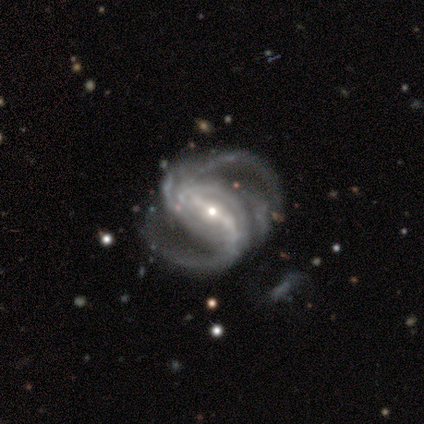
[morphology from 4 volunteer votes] Smooth or featured: featured or disk — 100%
Edge-on disk: no — 100%
Bar: strong — 100%
Spiral arms: yes — 100%
Spiral winding: medium — 75% (tight — 25%)
Spiral arm count: 2 — 50% (4 — 25%)
Bulge size: small — 75% (large — 25%)
Merging: none — 50% (minor disturbance — 25%)